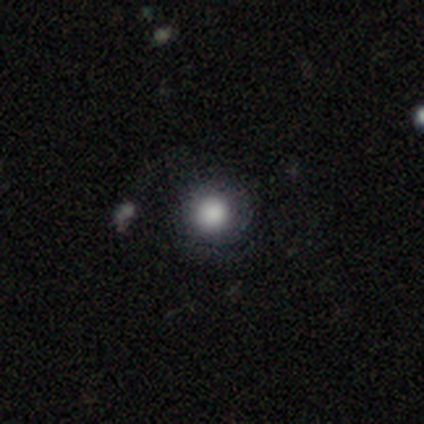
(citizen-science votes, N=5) smooth-or-featured: smooth: 100% | featured or disk: 0% | star or artifact: 0%
  how-rounded: round: 100% | in between: 0% | cigar-shaped: 0%
  merging: none: 100% | minor disturbance: 0% | major disturbance: 0% | merger: 0%